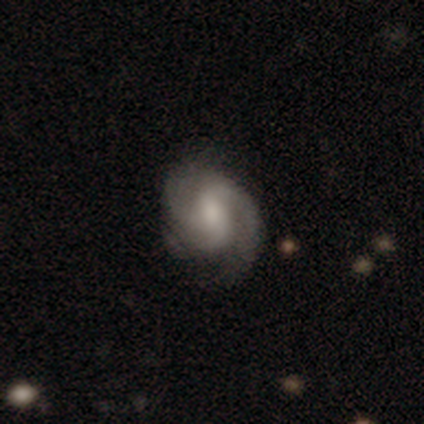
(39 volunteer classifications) Morphology: type=featured or disk (85%); edge-on=no (100%); bar=weak (45%); spiral arms=yes (100%); winding=medium (42%); arm count=2 (45%); bulge=moderate (42%); merging=none (68%).